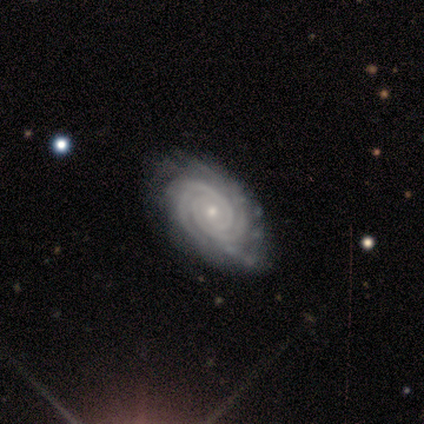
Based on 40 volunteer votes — Smooth or featured: featured or disk — 95% (star or artifact — 5%)
Edge-on disk: no — 97% (yes — 3%)
Bar: no — 73% (strong — 19%)
Spiral arms: yes — 100%
Spiral winding: tight — 100%
Spiral arm count: 2 — 57% (3 — 24%)
Bulge size: small — 78% (moderate — 19%)
Merging: none — 55% (minor disturbance — 13%)